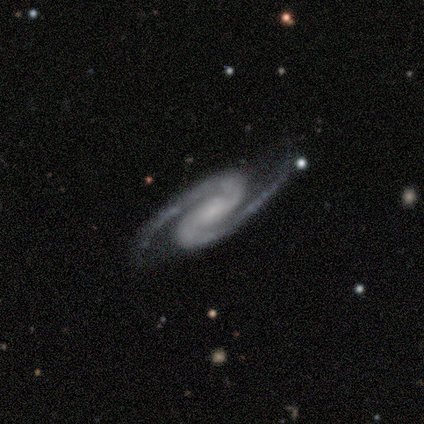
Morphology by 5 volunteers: Volunteers were most divided on "bar" (2-way tie): strong: 50%, weak: 50%, no: 0%; "bulge size" (2-way tie): moderate: 50%, small: 50%, dominant: 0%, large: 0%, none: 0%. More confident: edge-on disk — no (100%); spiral arms — yes (100%); spiral winding — medium (100%); spiral arm count — 2 (100%); smooth or featured — featured or disk (80%); merging — none (75%).